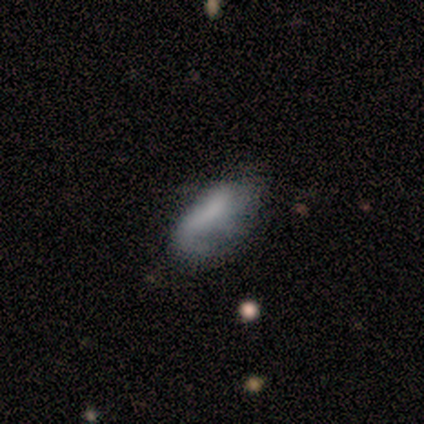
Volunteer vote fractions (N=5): Morphology: type=smooth (100%); roundness=in between (100%); merging=minor disturbance (40%).